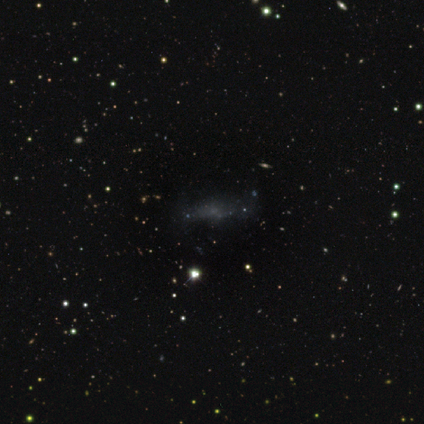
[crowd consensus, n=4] smooth_or_featured: smooth (p=1.00)
how_rounded: in between (p=0.75) [alt: cigar-shaped p=0.25]
merging: none (p=0.75) [alt: minor disturbance p=0.25]